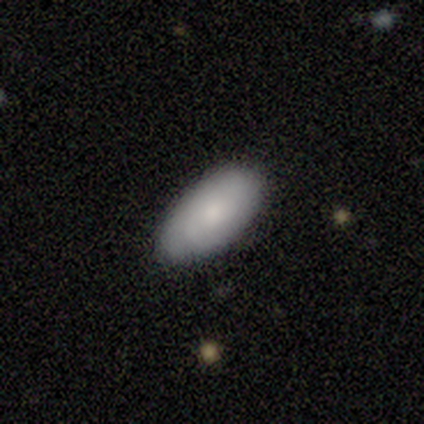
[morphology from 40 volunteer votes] Smooth or featured? smooth (70%)
How rounded? in between (96%)
Merging? none (95%)